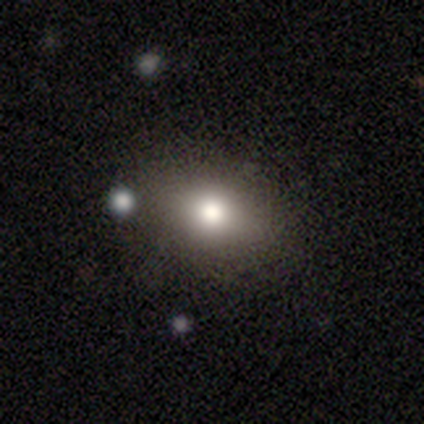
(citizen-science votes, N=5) Morphology: type=smooth (80%); roundness=in between (75%); merging=none (100%).